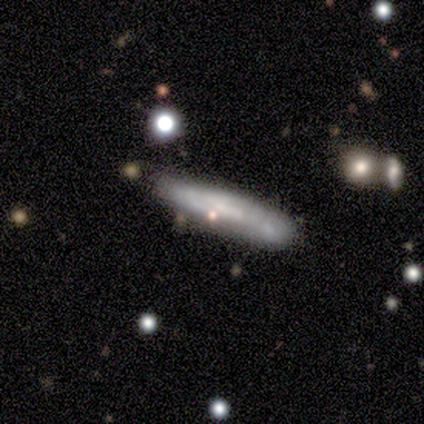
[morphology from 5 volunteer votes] A smooth galaxy with no disk features (60%) that is cigar-shaped (100%).

Vote fractions:
- Smooth or featured? smooth: 60% / featured or disk: 40% / star or artifact: 0%
- How rounded? cigar-shaped: 100% / round: 0% / in between: 0%
- Merging? minor disturbance: 60% / none: 40% / major disturbance: 0% / merger: 0%